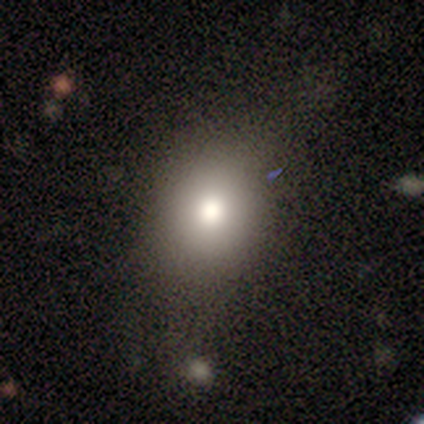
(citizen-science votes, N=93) Volunteers were most divided on "how rounded": round: 66%, in between: 34%, cigar-shaped: 0%. More confident: smooth or featured — smooth (76%); merging — none (68%).